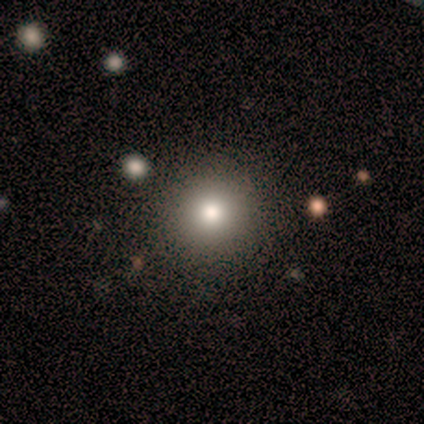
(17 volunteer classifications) Smooth or featured?
  - smooth: 65% *
  - featured or disk: 24%
  - star or artifact: 12%
How rounded?
  - round: 100% *
  - in between: 0%
  - cigar-shaped: 0%
Merging?
  - none: 100% *
  - minor disturbance: 0%
  - major disturbance: 0%
  - merger: 0%